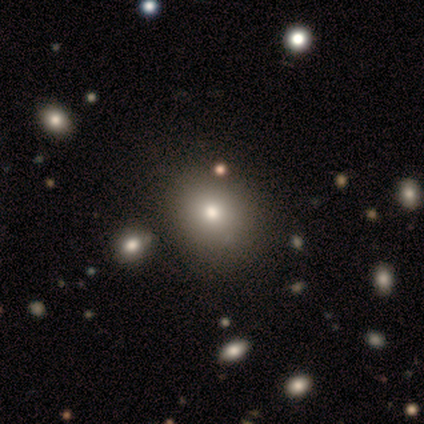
smooth_or_featured: smooth (p=0.80) [alt: featured or disk p=0.20]
how_rounded: round (p=0.50) [tied with: in between p=0.50]
merging: none (p=0.80) [alt: minor disturbance p=0.20]